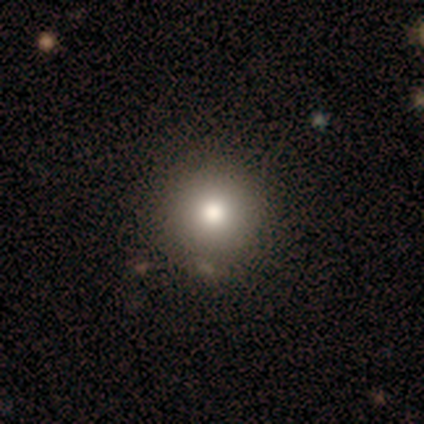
Smooth or featured?
  - smooth: 100% *
  - featured or disk: 0%
  - star or artifact: 0%
How rounded?
  - round: 100% *
  - in between: 0%
  - cigar-shaped: 0%
Merging?
  - none: 100% *
  - minor disturbance: 0%
  - major disturbance: 0%
  - merger: 0%